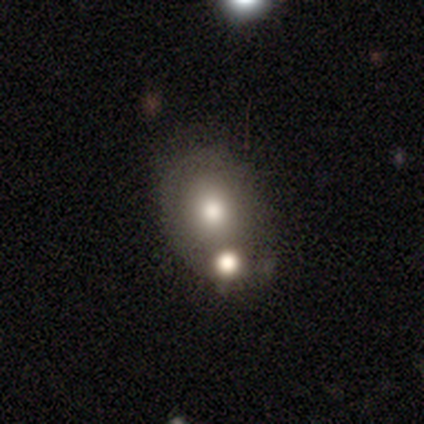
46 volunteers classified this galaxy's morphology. A smooth galaxy with no disk features (74%) that is round (50%, tied with in between).

Vote fractions:
- Smooth or featured? smooth: 74% / featured or disk: 17% / star or artifact: 9%
- How rounded? round: 50% (tied) / in between: 50% (tied) / cigar-shaped: 0%
- Merging? merger: 50% / none: 24% / minor disturbance: 24% / major disturbance: 2%